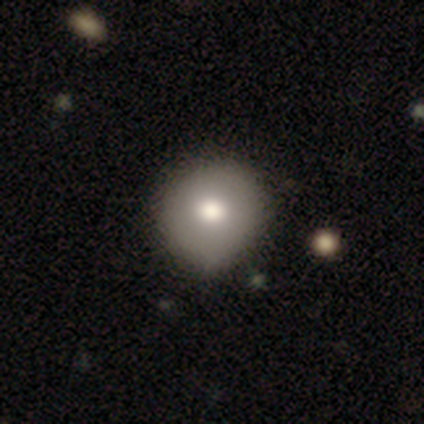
Volunteers were most divided on "merging": minor disturbance: 60%, none: 40%, major disturbance: 0%, merger: 0%. More confident: smooth or featured — smooth (100%); how rounded — round (100%).